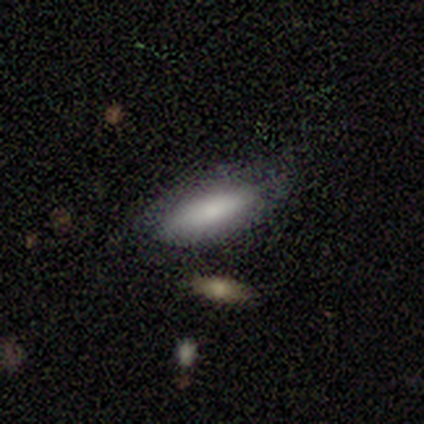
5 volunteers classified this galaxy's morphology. smooth_or_featured: smooth (p=0.40) [tied with: featured or disk p=0.40]
how_rounded: in between (p=1.00)
merging: none (p=0.50) [alt: minor disturbance p=0.25]